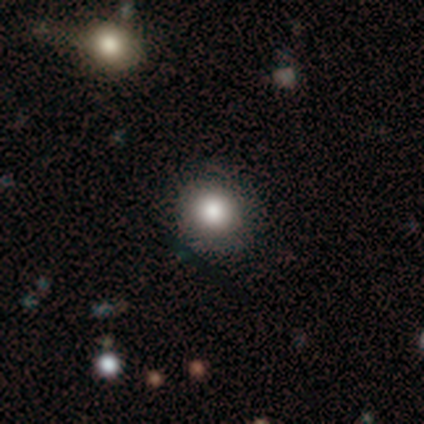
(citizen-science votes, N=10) smooth-or-featured: smooth: 90% | featured or disk: 10% | star or artifact: 0%
  how-rounded: round: 100% | in between: 0% | cigar-shaped: 0%
  merging: none: 100% | minor disturbance: 0% | major disturbance: 0% | merger: 0%